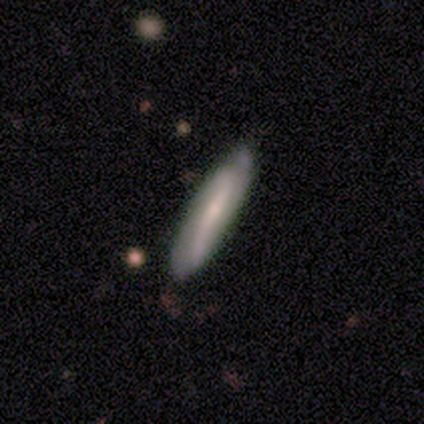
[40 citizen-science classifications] Smooth or featured? featured or disk (52%)
Edge-on disk? no (67%)
Bar? strong (43%, tied with weak)
Spiral arms? yes (86%)
Spiral winding? loose (42%)
Spiral arm count? 2 (58%)
Bulge size? small (57%)
Merging? none (70%)